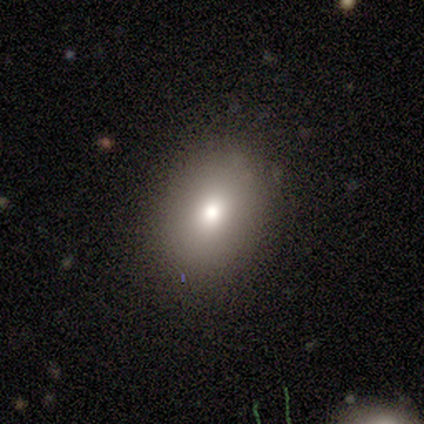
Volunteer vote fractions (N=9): smooth-or-featured: smooth: 56% | featured or disk: 22% | star or artifact: 22%
  how-rounded: in between: 60% | round: 40% | cigar-shaped: 0%
  merging: none: 100% | minor disturbance: 0% | major disturbance: 0% | merger: 0%